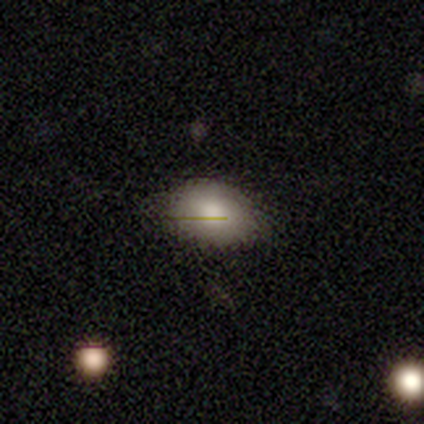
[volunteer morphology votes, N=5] Overall: smooth (80%). How rounded: round (75%). Merging: none (50%, tied with minor disturbance).